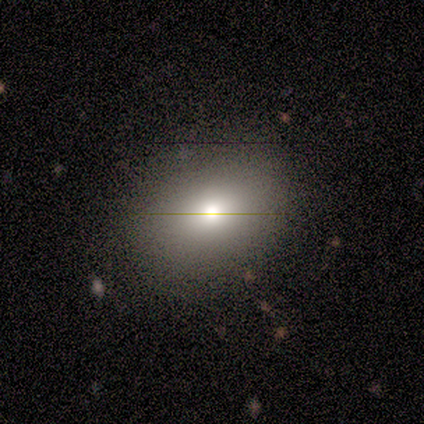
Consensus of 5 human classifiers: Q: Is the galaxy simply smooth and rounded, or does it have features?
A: smooth — 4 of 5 (80%).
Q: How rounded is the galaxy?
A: in between — 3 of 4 (75%).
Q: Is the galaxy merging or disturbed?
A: none — 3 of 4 (75%).